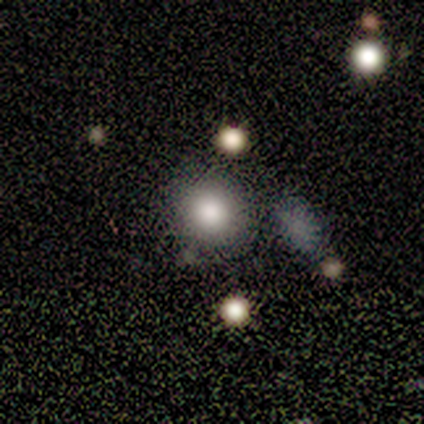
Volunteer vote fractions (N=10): Overall: smooth (80%). How rounded: round (62%; in between 38%). Merging: none (67%; minor disturbance 33%).